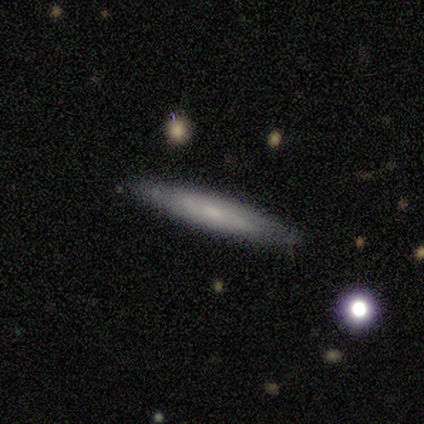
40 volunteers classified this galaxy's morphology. This is possibly a smooth galaxy (55%). How rounded: clearly cigar-shaped (86%). Merging: clearly none (88%).